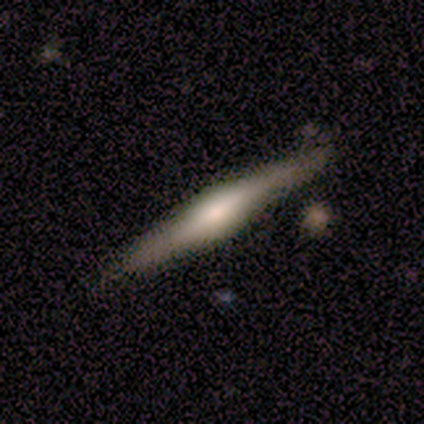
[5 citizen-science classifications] smooth-or-featured: featured or disk: 80% | smooth: 20% | star or artifact: 0%
  disk-edge-on: yes: 100% | no: 0%
    edge-on-bulge: rounded: 100% | boxy: 0% | none: 0%
  merging: none: 60% | minor disturbance: 40% | major disturbance: 0% | merger: 0%